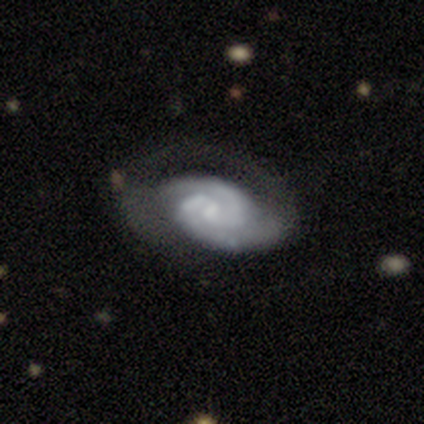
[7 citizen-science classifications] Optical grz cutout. It shows a featured or disk galaxy (100%) with a weak bar (57%), 2 (86%) tight (71%) spiral arms (100%) and no central bulge (43%). Merging: major disturbance (57%).